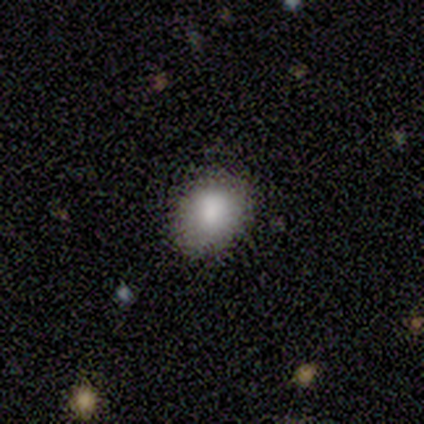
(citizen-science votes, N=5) A smooth galaxy with no disk features (80%) that is in between round and cigar-shaped (75%). Merging: none (60%).